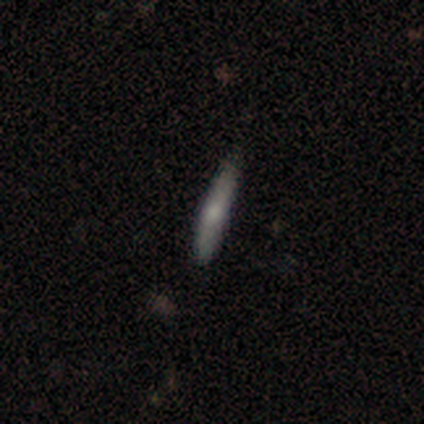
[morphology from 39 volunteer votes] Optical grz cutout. It shows a smooth galaxy with no disk features (59%) that is cigar-shaped (96%). Merging: none (80%).